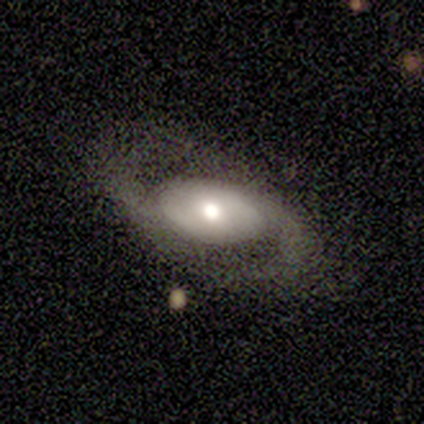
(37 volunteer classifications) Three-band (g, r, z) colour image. It shows a featured or disk galaxy (62%) with no bar (67%), 2 (100%) medium (44%) spiral arms (100%) and a moderate central bulge (67%). Merging: none (74%).